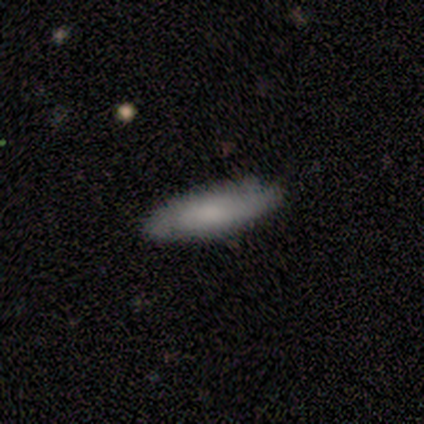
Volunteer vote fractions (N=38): Smooth or featured? smooth (68%)
How rounded? in between (50%)
Merging? none (72%)